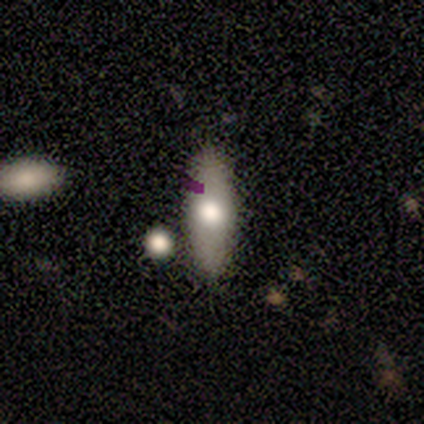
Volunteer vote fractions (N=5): A smooth galaxy with no disk features (60%) that is in between round and cigar-shaped (67%).

Vote fractions:
- Smooth or featured? smooth: 60% / featured or disk: 40% / star or artifact: 0%
- How rounded? in between: 67% / cigar-shaped: 33% / round: 0%
- Merging? none: 80% / minor disturbance: 20% / major disturbance: 0% / merger: 0%